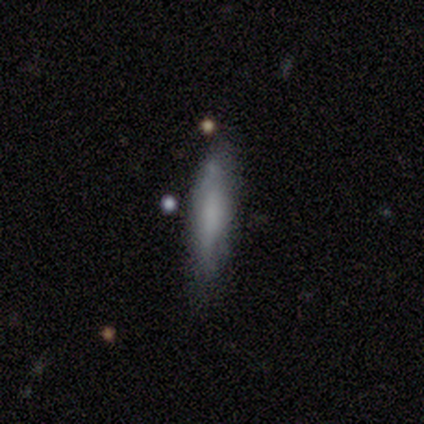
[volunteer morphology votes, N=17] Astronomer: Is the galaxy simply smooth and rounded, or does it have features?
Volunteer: smooth — 59% (runner-up: featured or disk, 41%).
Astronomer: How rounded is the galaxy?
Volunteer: cigar-shaped — 90%.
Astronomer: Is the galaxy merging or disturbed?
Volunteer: none — 59%.